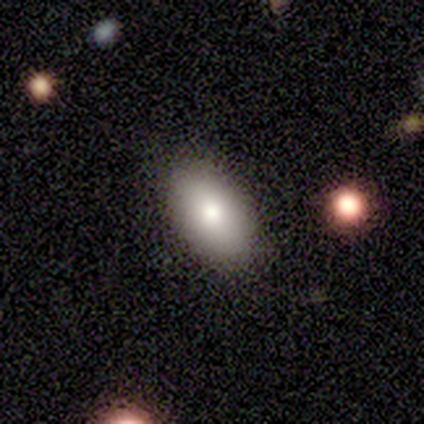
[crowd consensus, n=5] Smooth or featured: smooth — 100%
How rounded: in between — 100%
Merging: none — 100%